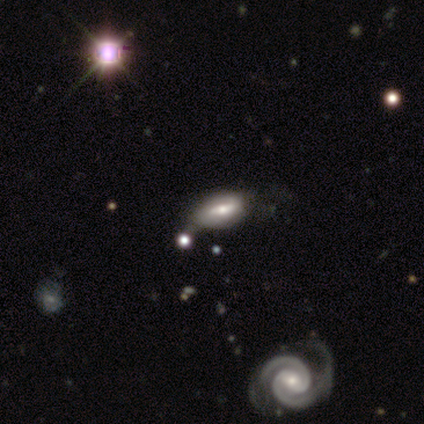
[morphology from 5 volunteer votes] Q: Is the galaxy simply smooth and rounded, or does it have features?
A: smooth — 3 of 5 (60%).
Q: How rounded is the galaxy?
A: in between — 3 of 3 (100%).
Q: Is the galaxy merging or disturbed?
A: minor disturbance — 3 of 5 (60%).